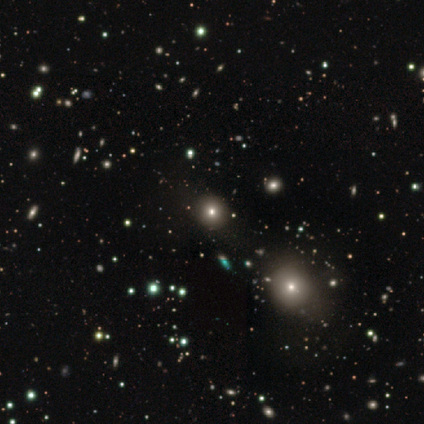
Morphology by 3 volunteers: Smooth or featured?
  - star or artifact: 100% *
  - smooth: 0%
  - featured or disk: 0%